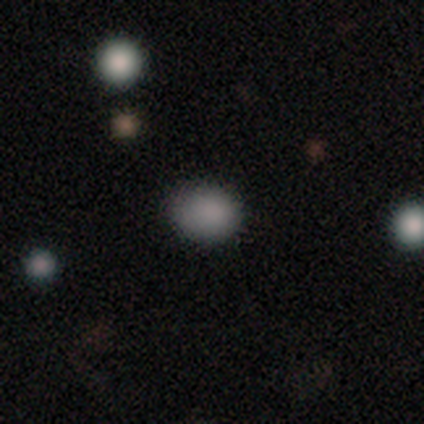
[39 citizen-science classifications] Q: Smooth or featured?
A: smooth (85%); runner-up: featured or disk (8%)
Q: How rounded?
A: in between (52%); runner-up: round (48%)
Q: Merging?
A: none (81%); runner-up: minor disturbance (14%)